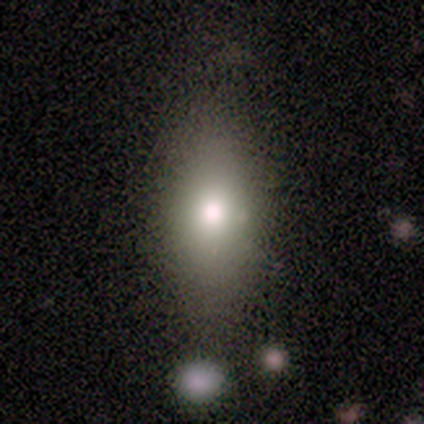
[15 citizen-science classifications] This is possibly a smooth galaxy (47%). How rounded: possibly in between (57%). Merging: likely none (64%).